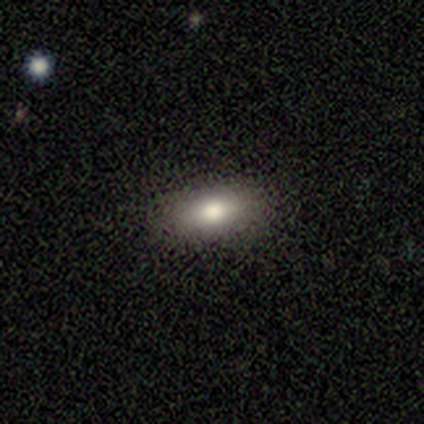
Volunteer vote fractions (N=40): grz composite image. It shows a smooth galaxy with no disk features (78%) that is in between round and cigar-shaped (87%). Merging: none (95%).